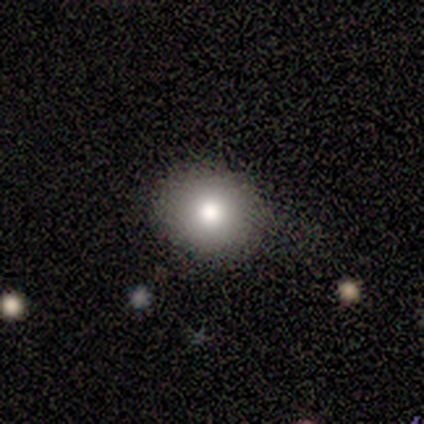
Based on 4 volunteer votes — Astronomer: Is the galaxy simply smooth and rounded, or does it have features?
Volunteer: smooth — 75%.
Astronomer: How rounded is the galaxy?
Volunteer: round — 100%.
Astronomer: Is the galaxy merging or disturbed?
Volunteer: none — 67%.